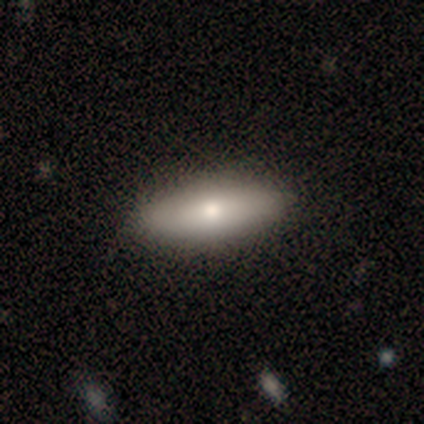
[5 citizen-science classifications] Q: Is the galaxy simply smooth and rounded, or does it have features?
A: smooth — 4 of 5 (80%).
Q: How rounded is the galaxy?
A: in between — 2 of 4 (50%, tied with cigar-shaped).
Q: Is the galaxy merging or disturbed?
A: none — 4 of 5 (80%).